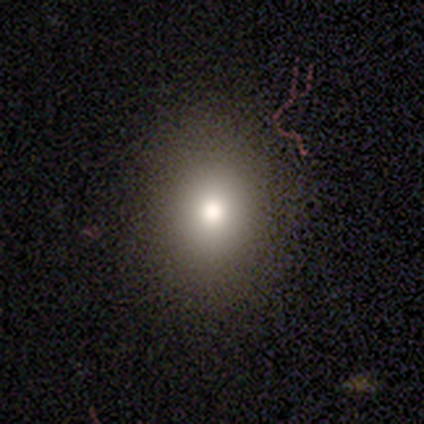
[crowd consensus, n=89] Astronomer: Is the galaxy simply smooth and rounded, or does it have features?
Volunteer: smooth — 75%.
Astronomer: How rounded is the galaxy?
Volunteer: round — 54% (runner-up: in between, 46%).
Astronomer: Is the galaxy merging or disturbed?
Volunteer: none — 91%.